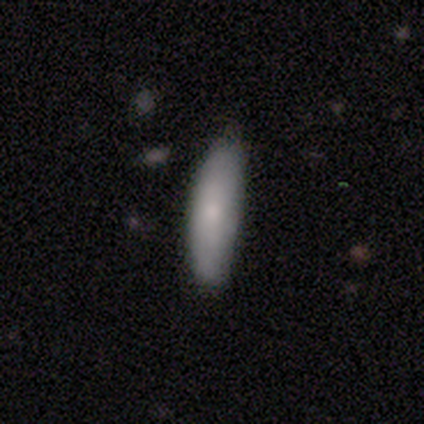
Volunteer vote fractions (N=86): Volunteers were most divided on "how rounded": cigar-shaped: 67%, in between: 33%, round: 0%. More confident: smooth or featured — smooth (85%); merging — none (67%).